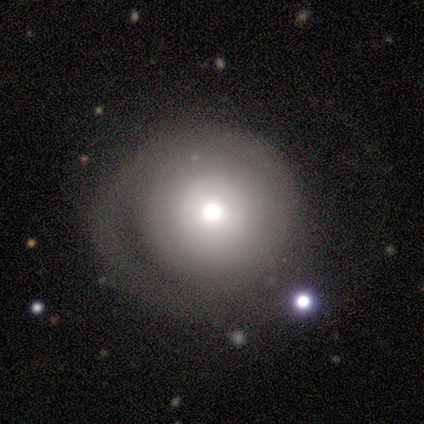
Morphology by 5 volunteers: smooth 100%, featured or disk 0%, star or artifact 0%. Down the decision tree: how rounded — round (100%); merging — none (80%).